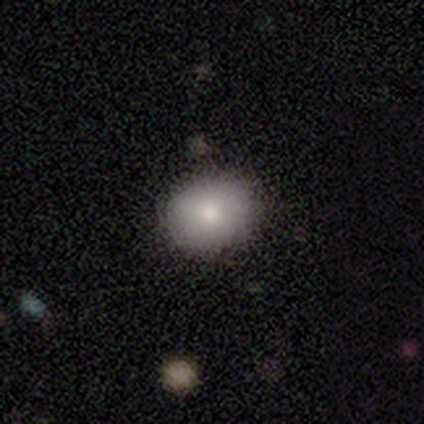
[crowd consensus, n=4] A smooth galaxy with no disk features (100%) that is in between round and cigar-shaped (75%).

Vote fractions:
- Smooth or featured? smooth: 100% / featured or disk: 0% / star or artifact: 0%
- How rounded? in between: 75% / round: 25% / cigar-shaped: 0%
- Merging? none: 100% / minor disturbance: 0% / major disturbance: 0% / merger: 0%